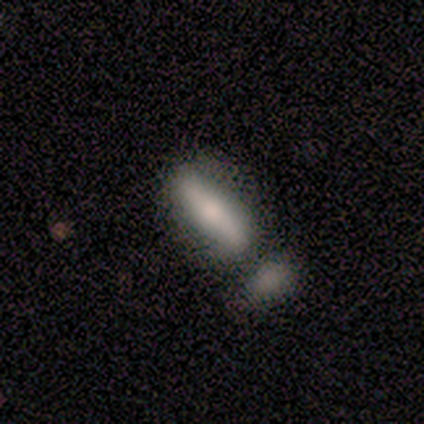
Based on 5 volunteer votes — A smooth galaxy with no disk features (40%, tied with featured or disk) that is cigar-shaped (100%). Merging: none (75%).